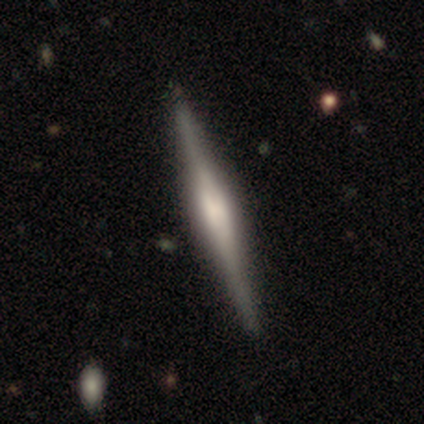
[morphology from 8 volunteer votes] type=featured or disk (100%); edge-on=yes (100%); edge-on bulge=boxy (50%, tied with rounded); merging=none (75%).